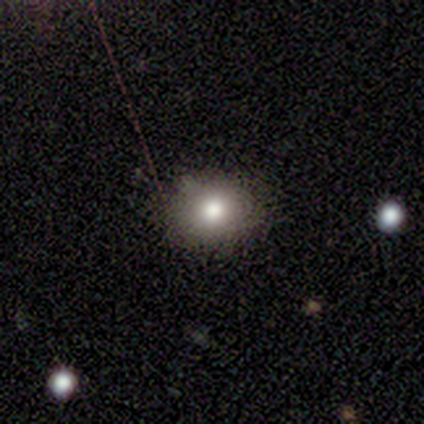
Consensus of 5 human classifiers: Smooth or featured? smooth (100%)
How rounded? round (80%)
Merging? none (60%)